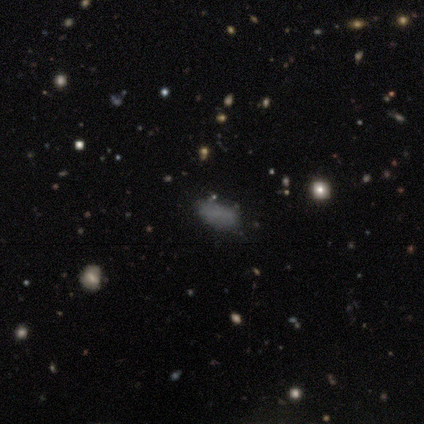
Smooth or featured? 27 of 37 (73%) said smooth. How rounded? 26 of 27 (96%) said in between. Merging? 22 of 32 (69%) said none.